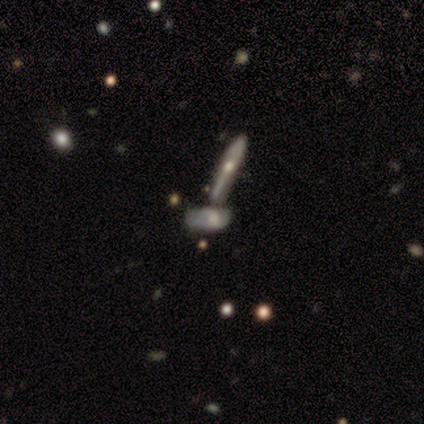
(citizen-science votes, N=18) This is possibly a featured or disk galaxy (50%). It is possibly not viewed edge-on (56%). Bar: clearly no (100%). Spiral arm pattern: clearly no (100%). Central bulge: marginally large (40%). Merging: possibly merger (53%).